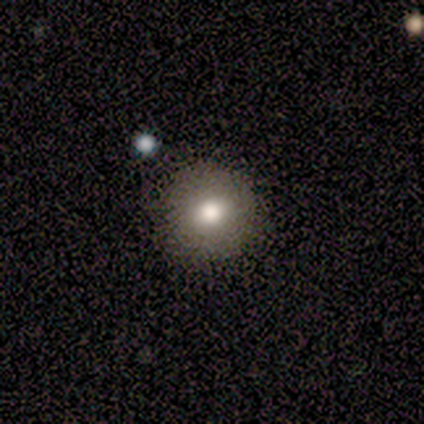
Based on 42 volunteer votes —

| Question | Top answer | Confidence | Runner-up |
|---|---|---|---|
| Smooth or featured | smooth | 69% | featured or disk (17%) |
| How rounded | round | 97% | in between (3%) |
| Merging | none | 92% | minor disturbance (8%) |